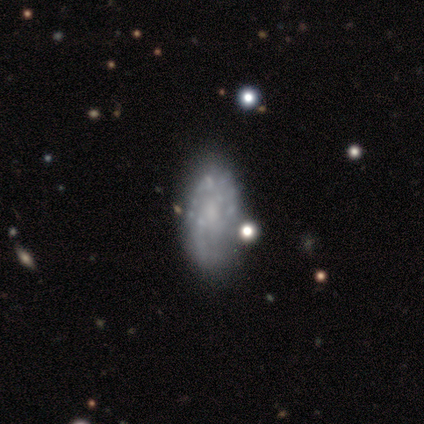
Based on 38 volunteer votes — This appears to be a featured or disk galaxy (76%) with no bar (75%), no spiral arms (54%) and no central bulge (46%). Merging: none (58%).